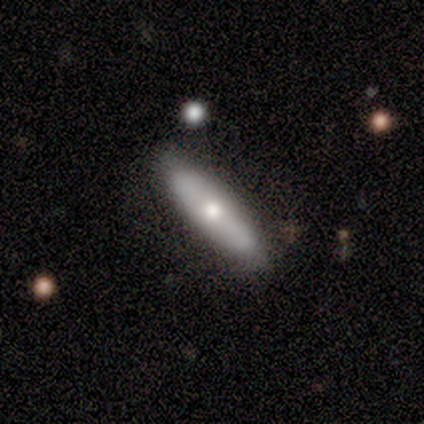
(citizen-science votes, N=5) A smooth galaxy with no disk features (60%) that is cigar-shaped (100%).

Vote fractions:
- Smooth or featured? smooth: 60% / featured or disk: 20% / star or artifact: 20%
- How rounded? cigar-shaped: 100% / round: 0% / in between: 0%
- Merging? none: 75% / minor disturbance: 25% / major disturbance: 0% / merger: 0%